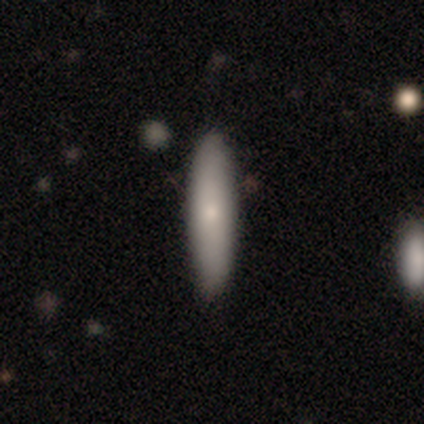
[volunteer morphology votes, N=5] type=smooth (60%); roundness=cigar-shaped (100%); merging=none (80%).